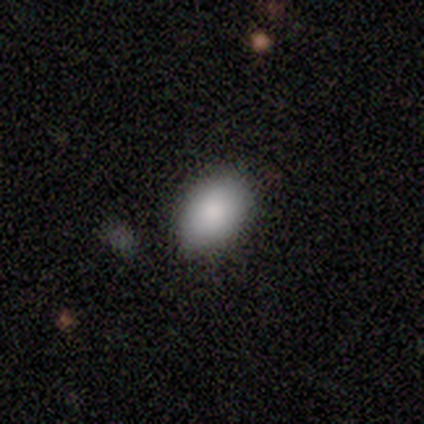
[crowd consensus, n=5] A smooth galaxy with no disk features (100%) that is in between round and cigar-shaped (100%).

Vote fractions:
- Smooth or featured? smooth: 100% / featured or disk: 0% / star or artifact: 0%
- How rounded? in between: 100% / round: 0% / cigar-shaped: 0%
- Merging? none: 80% / minor disturbance: 20% / major disturbance: 0% / merger: 0%